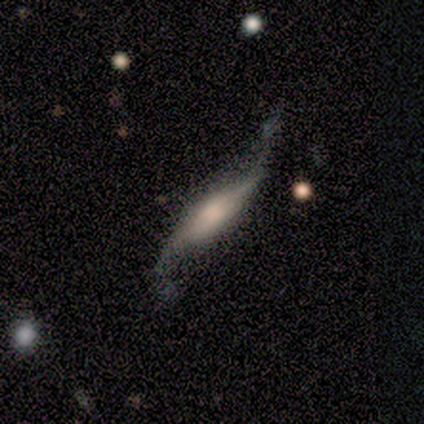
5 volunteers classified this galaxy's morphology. A featured or disk galaxy (100%) viewed edge-on (60%) with a boxy central bulge (33%, tied with none and rounded).

Vote fractions:
- Smooth or featured? featured or disk: 100% / smooth: 0% / star or artifact: 0%
- Edge-on disk? yes: 60% / no: 40%
- Edge-on bulge? boxy: 33% (tied) / none: 33% (tied) / rounded: 33% (tied)
- Merging? none: 60% / minor disturbance: 20% / major disturbance: 20% / merger: 0%